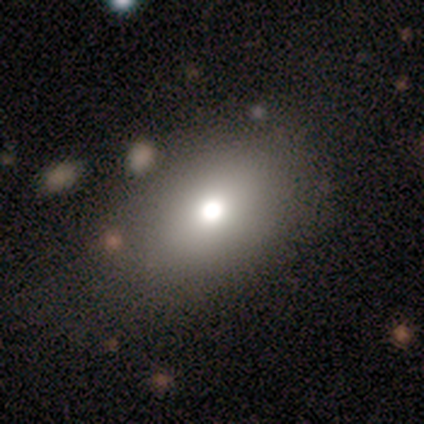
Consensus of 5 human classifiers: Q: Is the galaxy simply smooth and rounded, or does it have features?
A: smooth — 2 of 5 (40%, tied with featured or disk).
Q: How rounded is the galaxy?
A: in between — 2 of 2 (100%).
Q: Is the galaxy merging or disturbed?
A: none — 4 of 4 (100%).